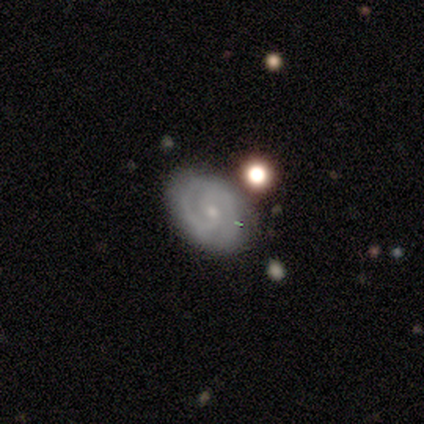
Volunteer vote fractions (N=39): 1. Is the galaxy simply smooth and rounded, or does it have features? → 74% featured or disk, 15% smooth, 10% star or artifact.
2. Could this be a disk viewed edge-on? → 93% no, 7% yes.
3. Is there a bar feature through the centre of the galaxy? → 63% no, 37% weak, 0% strong.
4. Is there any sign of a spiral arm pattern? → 89% yes, 11% no.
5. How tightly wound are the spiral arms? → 67% tight, 29% medium, 4% loose.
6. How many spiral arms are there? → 58% 2, 29% can't tell, 8% 3, 4% 1, 0% 4, 0% more than 4.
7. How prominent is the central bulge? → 70% small, 19% moderate, 11% none, 0% dominant, 0% large.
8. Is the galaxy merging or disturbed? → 80% none, 9% minor disturbance, 6% major disturbance, 6% merger.